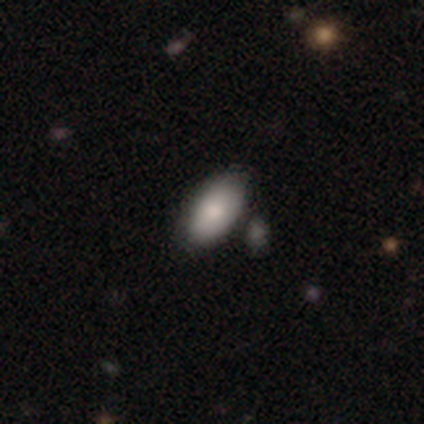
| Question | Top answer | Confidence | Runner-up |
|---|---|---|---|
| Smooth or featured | smooth | 64% | featured or disk (36%) |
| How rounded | in between | 100% | — |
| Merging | none | 64% | minor disturbance (36%) |